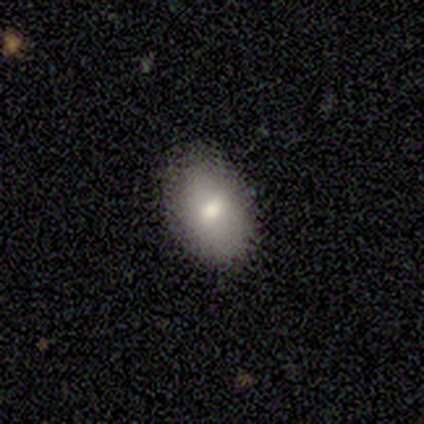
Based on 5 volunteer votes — Overall: smooth (80%). How rounded: in between (75%). Merging: minor disturbance (60%; none 40%).